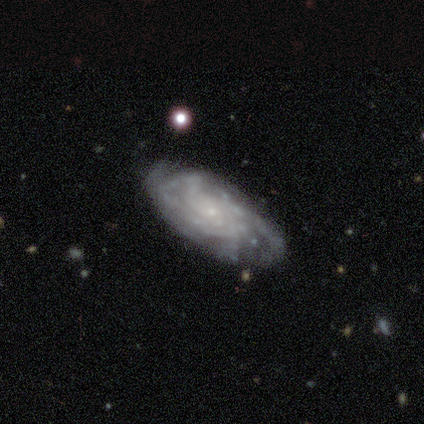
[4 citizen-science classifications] Overall: featured or disk (100%). Edge-on disk: no (100%). Bar: no (75%). Spiral arms: yes (100%). Spiral arm count: more than 4 (50%; 3 25%). Spiral winding: tight (75%). Bulge size: small (100%). Merging: none (50%; minor disturbance 25%).